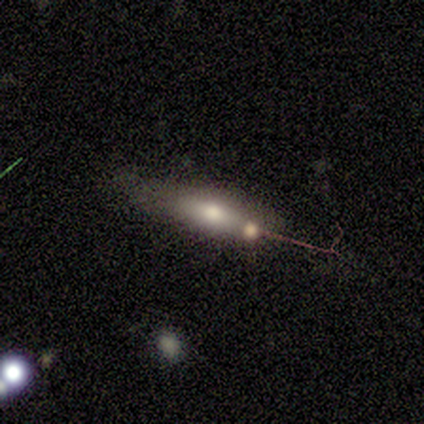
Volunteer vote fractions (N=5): Smooth or featured: featured or disk — 80% (smooth — 20%)
Edge-on disk: yes — 75% (no — 25%)
Edge-on bulge: boxy — 33% (tied with none — 33%; rounded — 33%)
Merging: none — 60% (minor disturbance — 40%)